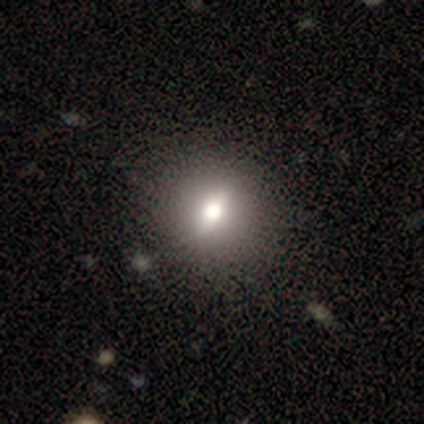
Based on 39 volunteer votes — A smooth galaxy with no disk features (51%) that is round (75%).

Vote fractions:
- Smooth or featured? smooth: 51% / featured or disk: 44% / star or artifact: 5%
- How rounded? round: 75% / in between: 20% / cigar-shaped: 5%
- Merging? none: 51% / minor disturbance: 3% / major disturbance: 3% / merger: 3%